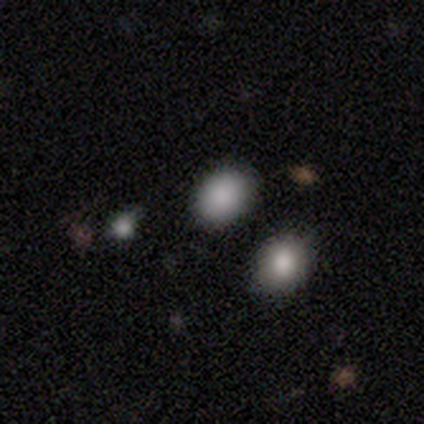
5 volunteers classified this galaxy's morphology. smooth-or-featured: smooth: 80% | star or artifact: 20% | featured or disk: 0%
  how-rounded: round: 50% (tied) | in between: 50% (tied) | cigar-shaped: 0%
  merging: none: 100% | minor disturbance: 0% | major disturbance: 0% | merger: 0%